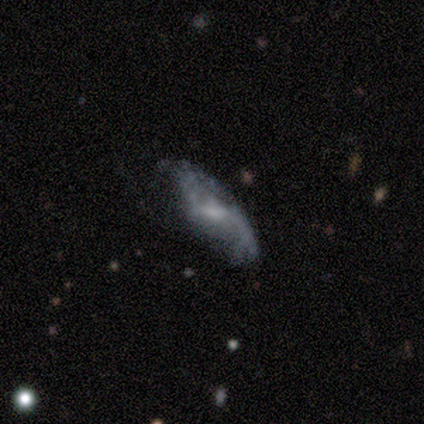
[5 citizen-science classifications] Q: Smooth or featured?
A: featured or disk (100%)
Q: Edge-on disk?
A: no (100%)
Q: Bar?
A: weak (60%); runner-up: strong (20%)
Q: Spiral arms?
A: yes (60%); runner-up: no (40%)
Q: Spiral winding?
A: loose (67%); runner-up: medium (33%)
Q: Spiral arm count?
A: 2 (67%); runner-up: can't tell (33%)
Q: Bulge size?
A: moderate (60%); runner-up: small (40%)
Q: Merging?
A: none (60%); runner-up: minor disturbance (20%)